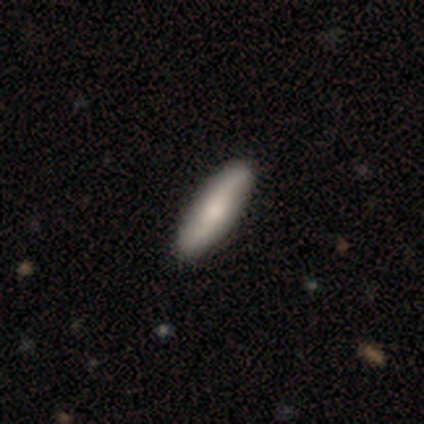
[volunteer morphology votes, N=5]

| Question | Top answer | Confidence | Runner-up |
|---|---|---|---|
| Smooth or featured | smooth | 60% | featured or disk (40%) |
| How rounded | cigar-shaped | 100% | — |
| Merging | none | 80% | major disturbance (20%) |